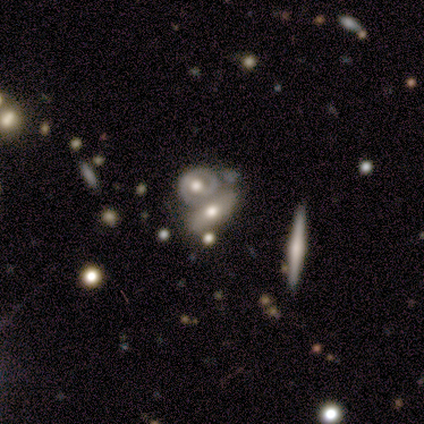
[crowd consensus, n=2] smooth_or_featured: smooth (p=0.50) [tied with: featured or disk p=0.50]
how_rounded: in between (p=1.00)
merging: merger (p=1.00)